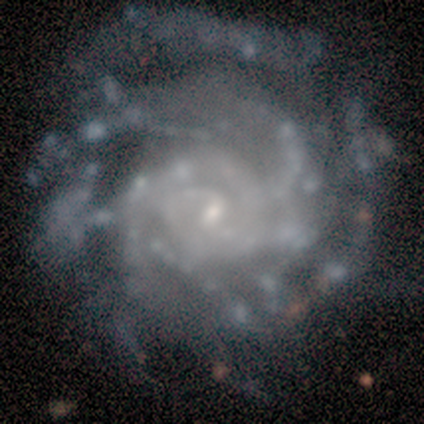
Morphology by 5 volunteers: smooth_or_featured: featured or disk (p=1.00)
disk_edge_on: no (p=1.00)
bar: no (p=0.60) [alt: weak p=0.40]
has_spiral_arms: yes (p=1.00)
spiral_winding: tight (p=0.80) [alt: loose p=0.20]
spiral_arm_count: can't tell (p=0.80) [alt: 4 p=0.20]
bulge_size: small (p=1.00)
merging: none (p=0.60) [alt: minor disturbance p=0.20]